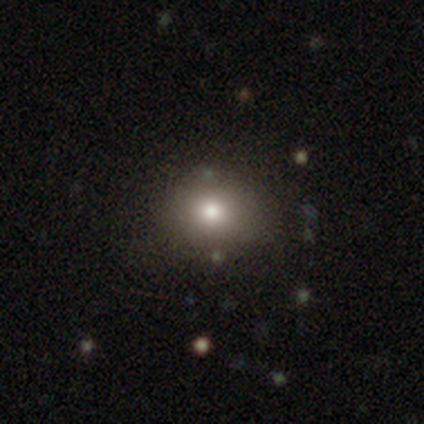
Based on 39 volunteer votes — Smooth or featured: smooth — 79% (featured or disk — 10%)
How rounded: round — 68% (in between — 32%)
Merging: none — 63% (minor disturbance — 6%)